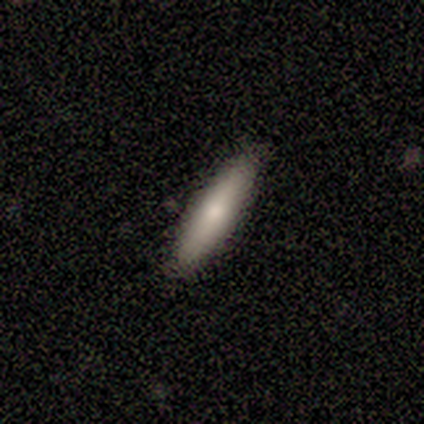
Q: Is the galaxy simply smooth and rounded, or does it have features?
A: smooth — 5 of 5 (100%).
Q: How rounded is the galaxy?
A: cigar-shaped — 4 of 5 (80%).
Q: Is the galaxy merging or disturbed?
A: none — 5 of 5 (100%).